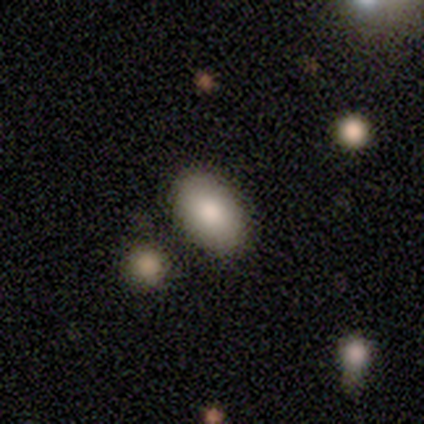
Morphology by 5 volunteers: A smooth galaxy with no disk features (80%) that is in between round and cigar-shaped (100%). Merging: none (80%).